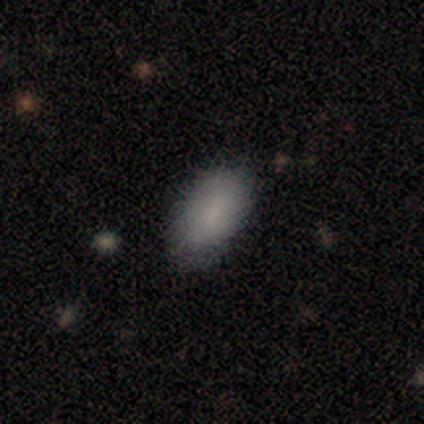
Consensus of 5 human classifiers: smooth_or_featured: smooth (p=1.00)
how_rounded: in between (p=1.00)
merging: none (p=0.60) [alt: minor disturbance p=0.40]